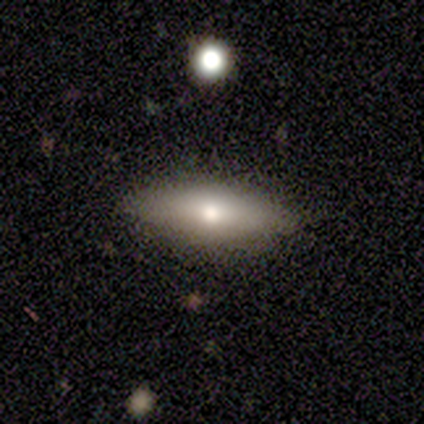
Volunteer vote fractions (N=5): Smooth or featured? smooth (80%)
How rounded? in between (75%)
Merging? none (80%)